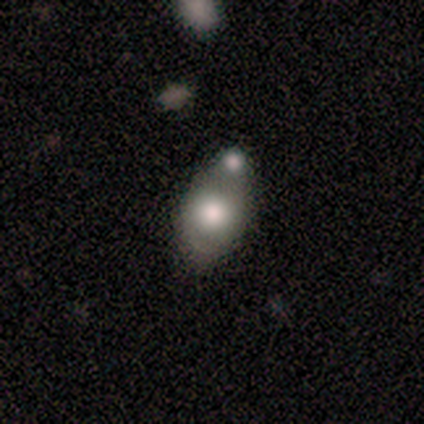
Smooth or featured? 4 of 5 (80%) said smooth. How rounded? 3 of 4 (75%) said in between. Merging? 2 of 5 (40%, tied with merger) said minor disturbance.